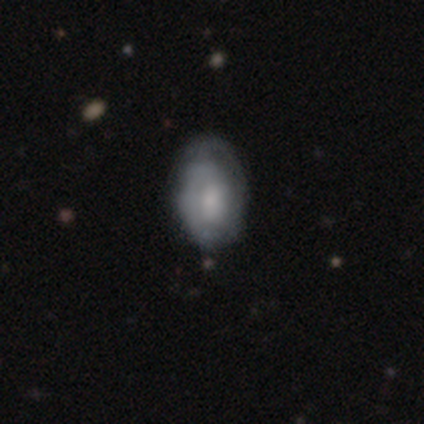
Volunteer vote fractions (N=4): This appears to be a smooth galaxy with no disk features (50%, tied with star or artifact) that is in between round and cigar-shaped (100%). Merging: none (50%, tied with minor disturbance).